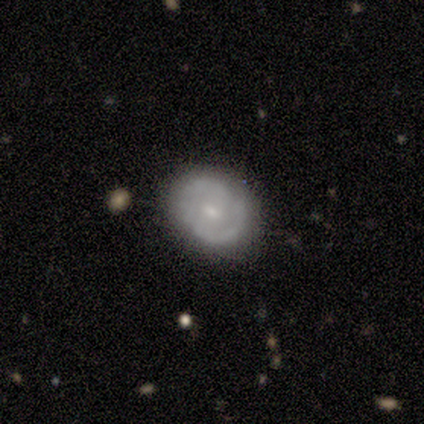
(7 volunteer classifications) Q: Smooth or featured?
A: featured or disk (71%); runner-up: smooth (29%)
Q: Edge-on disk?
A: no (100%)
Q: Bar?
A: weak (60%); runner-up: strong (20%)
Q: Spiral arms?
A: yes (100%)
Q: Spiral winding?
A: tight (60%); runner-up: medium (20%)
Q: Spiral arm count?
A: 2 (80%); runner-up: 4 (20%)
Q: Bulge size?
A: small (60%); runner-up: moderate (40%)
Q: Merging?
A: none (100%)